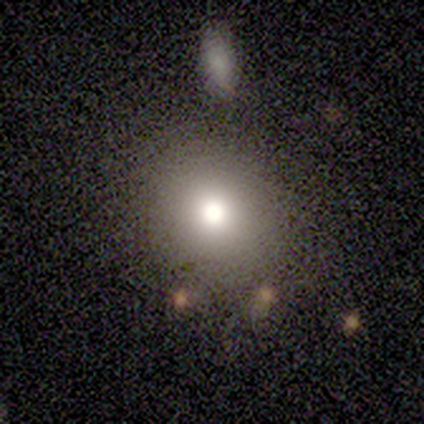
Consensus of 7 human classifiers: smooth_or_featured: smooth (p=0.86) [alt: featured or disk p=0.14]
how_rounded: round (p=0.83) [alt: in between p=0.17]
merging: none (p=0.71) [alt: minor disturbance p=0.29]